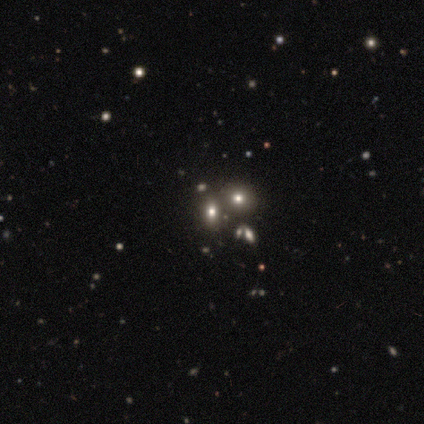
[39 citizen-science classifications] Smooth or featured? 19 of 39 (49%) said smooth. How rounded? 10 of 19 (53%) said round. Merging? 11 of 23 (48%) said none.